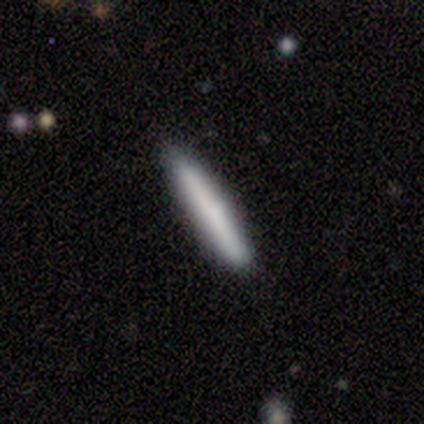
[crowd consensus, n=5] Smooth or featured?
  - smooth: 100% *
  - featured or disk: 0%
  - star or artifact: 0%
How rounded?
  - cigar-shaped: 100% *
  - round: 0%
  - in between: 0%
Merging?
  - none: 100% *
  - minor disturbance: 0%
  - major disturbance: 0%
  - merger: 0%